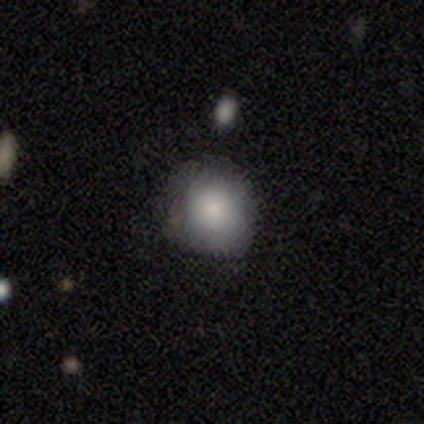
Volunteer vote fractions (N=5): Smooth or featured? smooth (80%)
How rounded? round (75%)
Merging? none (60%)